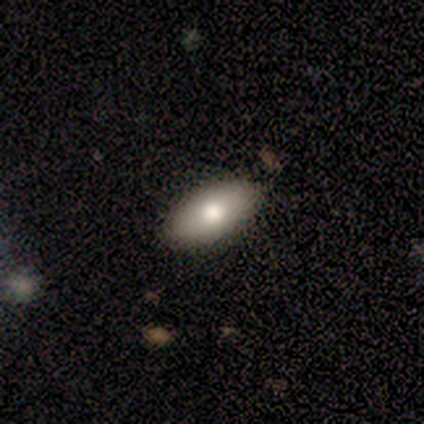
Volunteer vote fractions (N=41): Volunteers were most divided on "merging": none: 74%, minor disturbance: 24%, major disturbance: 3%, merger: 0%. More confident: how rounded — in between (82%); smooth or featured — smooth (80%).